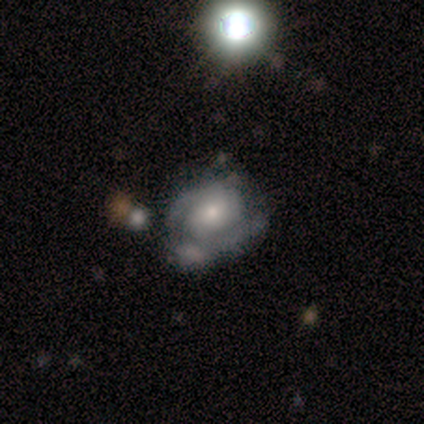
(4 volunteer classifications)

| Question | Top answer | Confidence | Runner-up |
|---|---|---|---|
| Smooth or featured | featured or disk | 75% | smooth (25%) |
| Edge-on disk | no | 100% | — |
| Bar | no | 67% | weak (33%) |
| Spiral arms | no | 67% | yes (33%) |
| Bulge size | small | 100% | — |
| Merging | none | 50% | minor disturbance (25%) |